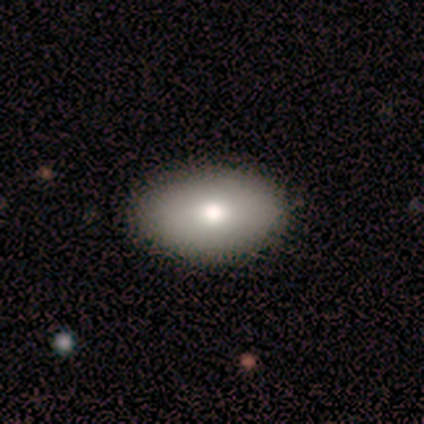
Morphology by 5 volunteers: smooth_or_featured: smooth (p=0.80) [alt: star or artifact p=0.20]
how_rounded: in between (p=1.00)
merging: none (p=1.00)